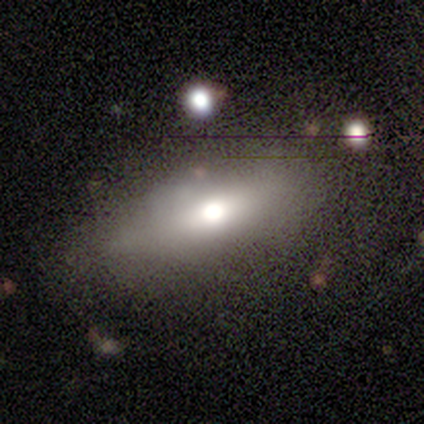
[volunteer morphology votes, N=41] Overall: smooth (51%; featured or disk 41%). How rounded: in between (67%; cigar-shaped 29%). Merging: none (58%; minor disturbance 24%).